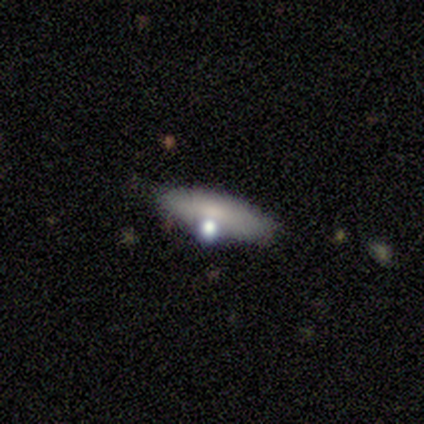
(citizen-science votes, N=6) Overall: featured or disk (83%). Edge-on disk: yes (80%). Edge-on bulge: rounded (75%). Merging: none (67%).